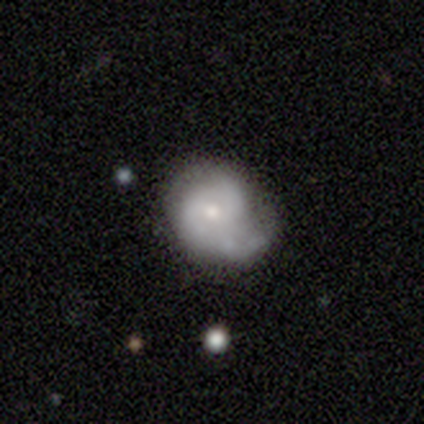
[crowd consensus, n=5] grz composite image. It shows a smooth galaxy with no disk features (60%) that is in between round and cigar-shaped (67%). Merging: minor disturbance (80%).